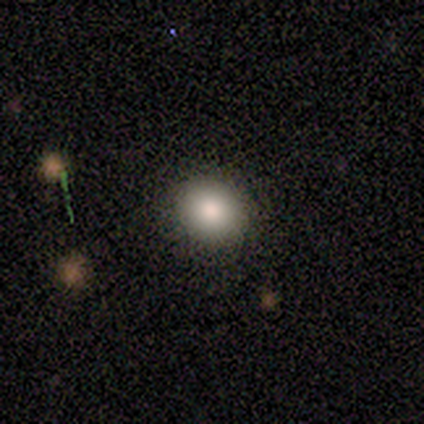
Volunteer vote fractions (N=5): smooth-or-featured: smooth: 100% | featured or disk: 0% | star or artifact: 0%
  how-rounded: round: 80% | in between: 20% | cigar-shaped: 0%
  merging: none: 100% | minor disturbance: 0% | major disturbance: 0% | merger: 0%